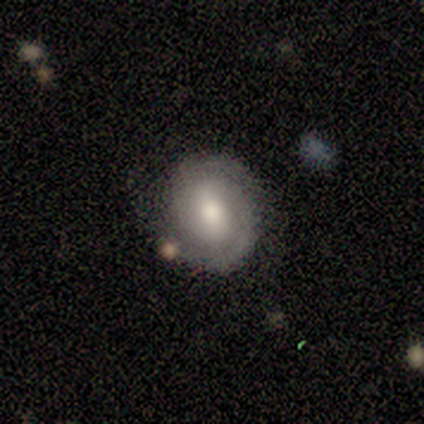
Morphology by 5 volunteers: Smooth or featured: smooth — 60% (featured or disk — 40%)
How rounded: round — 100%
Merging: none — 80% (major disturbance — 20%)